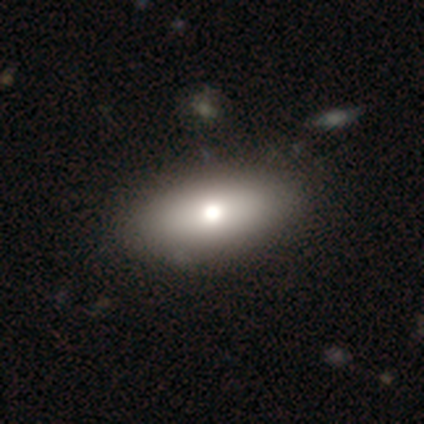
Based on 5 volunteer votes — Volunteers were most divided on "smooth or featured": smooth: 80%, featured or disk: 20%, star or artifact: 0%. More confident: how rounded — in between (100%); merging — none (100%).